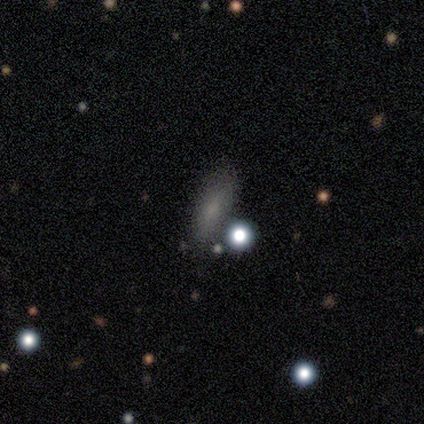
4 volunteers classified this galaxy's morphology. smooth_or_featured: smooth (p=0.50) [tied with: star or artifact p=0.50]
how_rounded: in between (p=0.50) [tied with: cigar-shaped p=0.50]
merging: none (p=1.00)